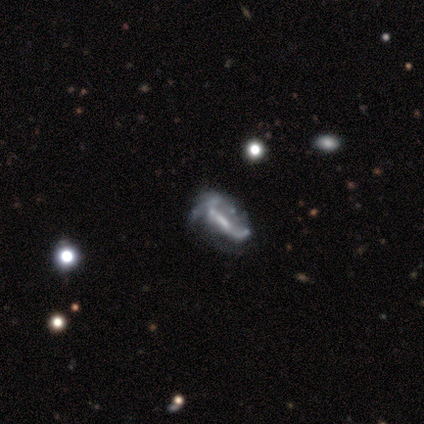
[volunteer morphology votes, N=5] A featured or disk galaxy (80%) with a strong bar (50%), no spiral arms (75%) and no central bulge (50%).

Vote fractions:
- Smooth or featured? featured or disk: 80% / smooth: 20% / star or artifact: 0%
- Edge-on disk? no: 100% / yes: 0%
- Bar? strong: 50% / weak: 25% / no: 25%
- Spiral arms? no: 75% / yes: 25%
- Bulge size? none: 50% / moderate: 25% / small: 25% / dominant: 0% / large: 0%
- Merging? major disturbance: 40% / none: 20% / minor disturbance: 20% / merger: 20%